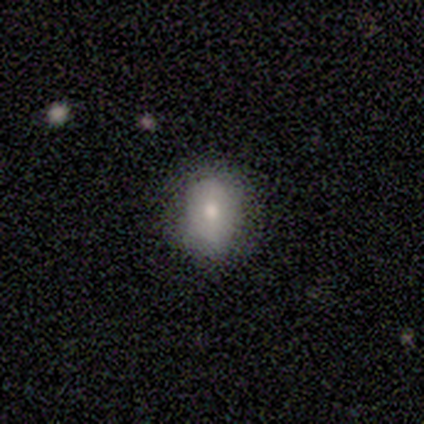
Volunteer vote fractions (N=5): Overall: smooth (80%). How rounded: in between (75%). Merging: none (80%).